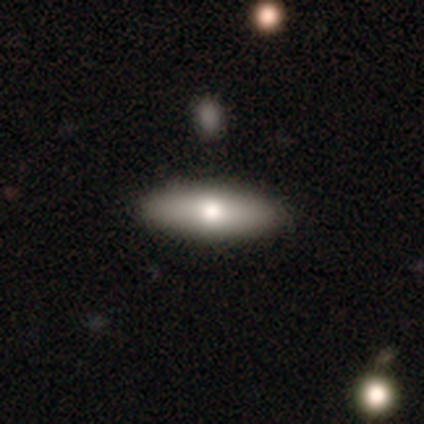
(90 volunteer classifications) Q: Smooth or featured?
A: smooth (56%); runner-up: featured or disk (39%)
Q: How rounded?
A: cigar-shaped (56%); runner-up: in between (44%)
Q: Merging?
A: none (91%); runner-up: minor disturbance (7%)